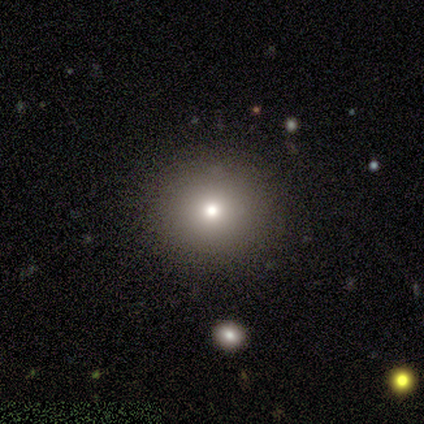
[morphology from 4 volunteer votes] type=featured or disk (75%); edge-on=no (100%); bar=no (100%); spiral arms=no (100%); bulge=large (33%, tied with moderate and small); merging=none (50%).